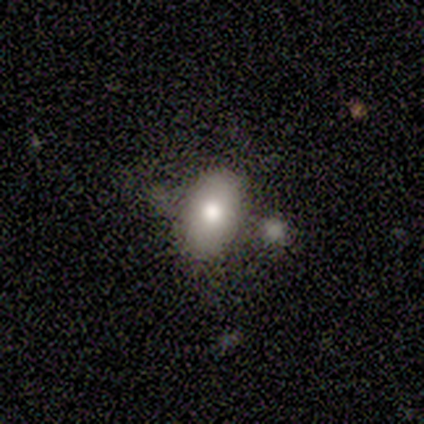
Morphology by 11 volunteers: smooth-or-featured: smooth: 91% | featured or disk: 9% | star or artifact: 0%
  how-rounded: in between: 100% | round: 0% | cigar-shaped: 0%
  merging: none: 64% | minor disturbance: 27% | major disturbance: 9% | merger: 0%